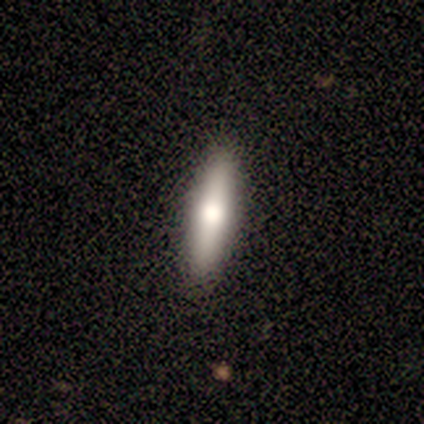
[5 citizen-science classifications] A featured or disk galaxy (60%) viewed edge-on (100%) with a rounded central bulge (100%).

Vote fractions:
- Smooth or featured? featured or disk: 60% / smooth: 40% / star or artifact: 0%
- Edge-on disk? yes: 100% / no: 0%
- Edge-on bulge? rounded: 100% / boxy: 0% / none: 0%
- Merging? none: 100% / minor disturbance: 0% / major disturbance: 0% / merger: 0%